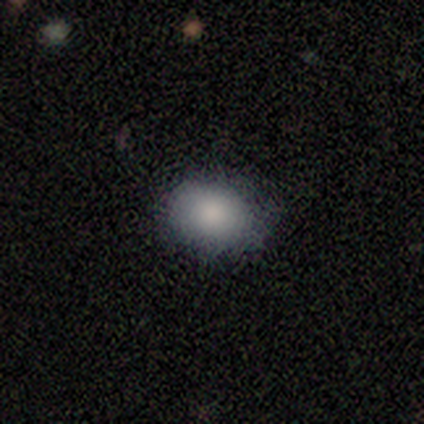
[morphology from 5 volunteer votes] Smooth or featured?
  - smooth: 80% *
  - star or artifact: 20%
  - featured or disk: 0%
How rounded?
  - in between: 75% *
  - round: 25%
  - cigar-shaped: 0%
Merging?
  - none: 75% *
  - minor disturbance: 25%
  - major disturbance: 0%
  - merger: 0%